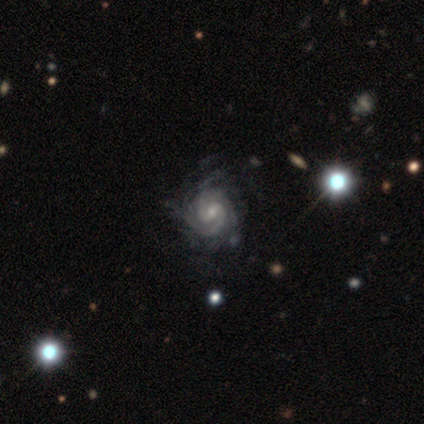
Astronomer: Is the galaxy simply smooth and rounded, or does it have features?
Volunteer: featured or disk — 100%.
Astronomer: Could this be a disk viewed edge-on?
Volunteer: no — 100%.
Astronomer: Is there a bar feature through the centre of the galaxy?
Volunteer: weak — 80%.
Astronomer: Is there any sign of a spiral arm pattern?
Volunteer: yes — 100%.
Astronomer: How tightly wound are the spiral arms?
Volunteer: tight — 60% (runner-up: medium, 40%).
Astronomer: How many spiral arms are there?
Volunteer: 2 — 60%.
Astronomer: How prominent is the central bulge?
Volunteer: small — 100%.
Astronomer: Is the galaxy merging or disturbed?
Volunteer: none — 60% (runner-up: minor disturbance, 40%).